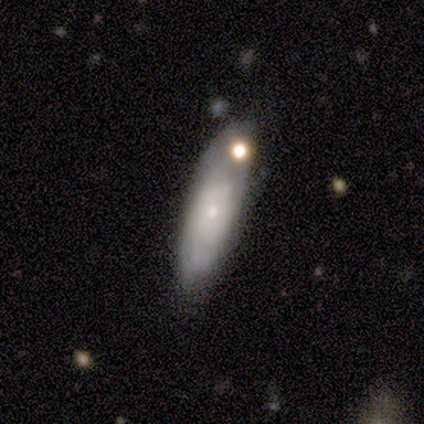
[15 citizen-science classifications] A featured or disk galaxy (60%) with no bar (78%), no spiral arms (56%) and a small central bulge (56%).

Vote fractions:
- Smooth or featured? featured or disk: 60% / smooth: 33% / star or artifact: 7%
- Edge-on disk? no: 100% / yes: 0%
- Bar? no: 78% / strong: 11% / weak: 11%
- Spiral arms? no: 56% / yes: 44%
- Bulge size? small: 56% / moderate: 33% / large: 11% / dominant: 0% / none: 0%
- Merging? none: 64% / minor disturbance: 14% / merger: 14% / major disturbance: 7%